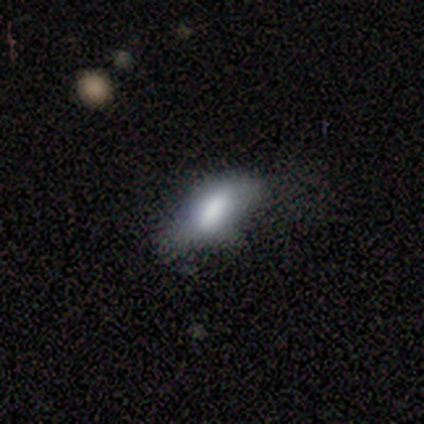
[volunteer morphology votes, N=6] Overall: smooth (83%). How rounded: in between (80%). Merging: none (83%).